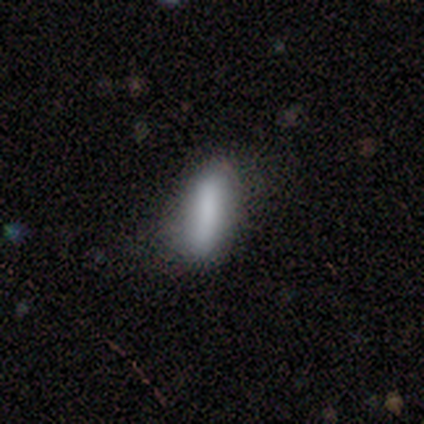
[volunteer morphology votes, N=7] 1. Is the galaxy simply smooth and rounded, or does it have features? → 100% smooth, 0% featured or disk, 0% star or artifact.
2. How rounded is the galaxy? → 57% cigar-shaped, 43% in between, 0% round.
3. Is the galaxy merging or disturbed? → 57% none, 43% minor disturbance, 0% major disturbance, 0% merger.